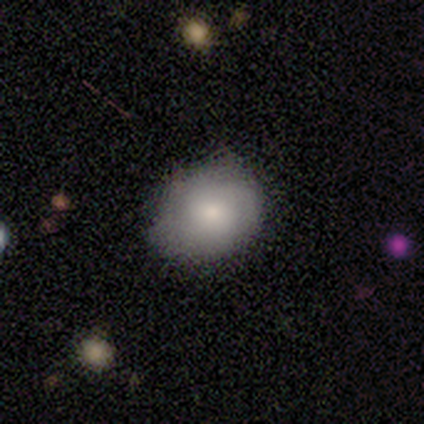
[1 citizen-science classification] Smooth or featured?
  - smooth: 100% *
  - featured or disk: 0%
  - star or artifact: 0%
How rounded?
  - in between: 100% *
  - round: 0%
  - cigar-shaped: 0%
Merging?
  - minor disturbance: 100% *
  - none: 0%
  - major disturbance: 0%
  - merger: 0%